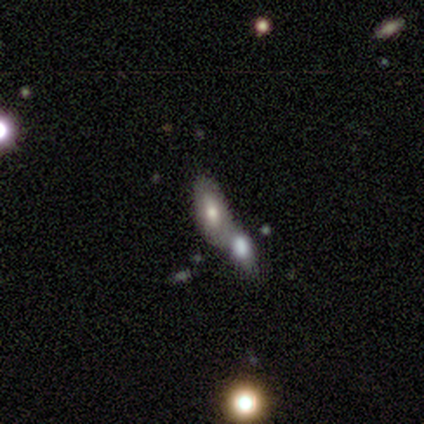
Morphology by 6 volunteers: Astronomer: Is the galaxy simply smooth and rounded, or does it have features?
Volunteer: smooth — 50% (runner-up: star or artifact, 33%).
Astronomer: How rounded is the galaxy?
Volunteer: in between — 100%.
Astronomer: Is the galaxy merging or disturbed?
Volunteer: merger — 75%.